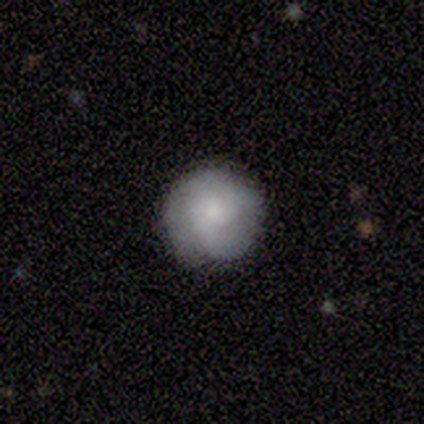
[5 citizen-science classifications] Smooth or featured: smooth — 100%
How rounded: round — 100%
Merging: none — 80% (minor disturbance — 20%)